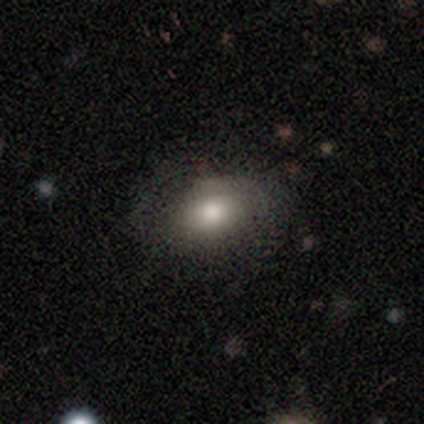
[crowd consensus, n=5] Q: Smooth or featured?
A: smooth (100%)
Q: How rounded?
A: in between (100%)
Q: Merging?
A: none (100%)